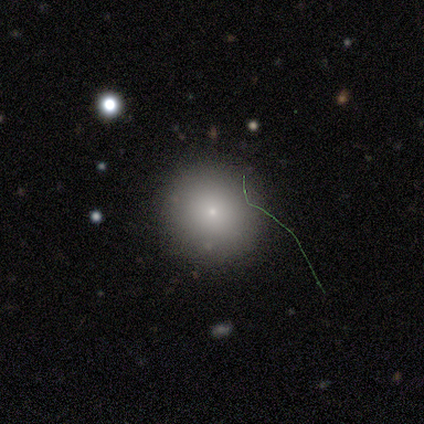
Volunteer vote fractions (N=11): Smooth or featured? 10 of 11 (91%) said smooth. How rounded? 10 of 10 (100%) said round. Merging? 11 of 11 (100%) said none.